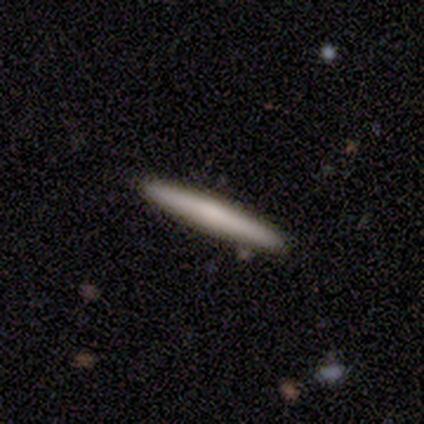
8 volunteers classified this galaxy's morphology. A smooth galaxy with no disk features (75%) that is cigar-shaped (100%).

Vote fractions:
- Smooth or featured? smooth: 75% / featured or disk: 25% / star or artifact: 0%
- How rounded? cigar-shaped: 100% / round: 0% / in between: 0%
- Merging? none: 88% / minor disturbance: 12% / major disturbance: 0% / merger: 0%